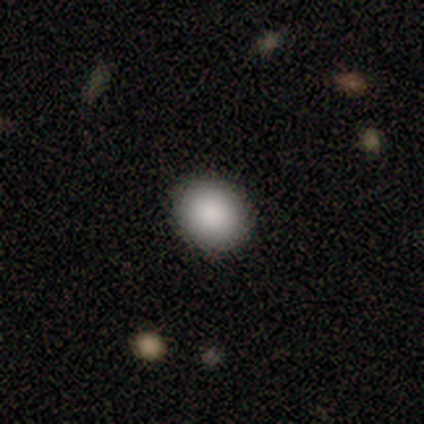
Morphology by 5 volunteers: smooth 80%, featured or disk 20%, star or artifact 0%. Down the decision tree: how rounded — round (50%, tied with in between); merging — none (80%).